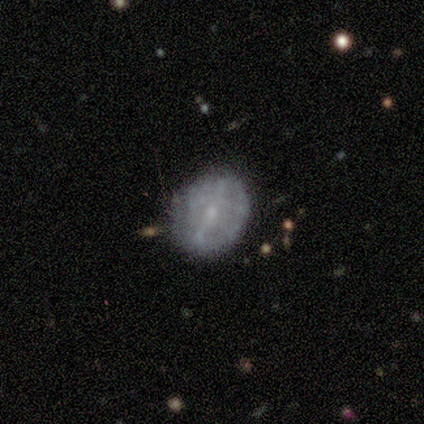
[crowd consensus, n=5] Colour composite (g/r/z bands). It shows a featured or disk galaxy (80%) with no bar (50%), no spiral arms (100%) and a small central bulge (100%). Merging: none (80%).